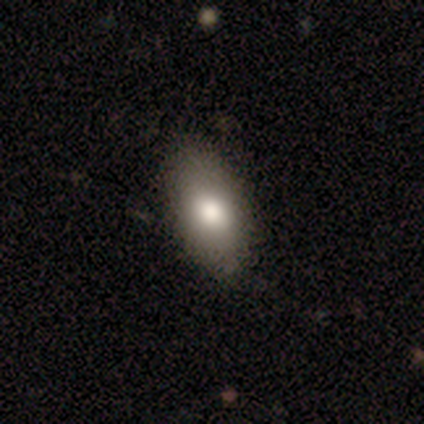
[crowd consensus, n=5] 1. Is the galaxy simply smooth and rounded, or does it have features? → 60% smooth, 20% featured or disk, 20% star or artifact.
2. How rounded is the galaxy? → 100% in between, 0% round, 0% cigar-shaped.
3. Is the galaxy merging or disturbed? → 50% none (tied), 50% minor disturbance (tied), 0% major disturbance, 0% merger.